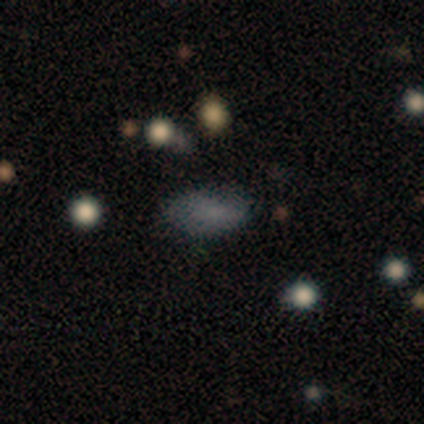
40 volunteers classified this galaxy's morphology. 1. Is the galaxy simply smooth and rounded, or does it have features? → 70% smooth, 18% star or artifact, 12% featured or disk.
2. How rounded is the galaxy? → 89% in between, 7% round, 4% cigar-shaped.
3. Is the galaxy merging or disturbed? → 70% none, 18% minor disturbance, 6% major disturbance, 6% merger.